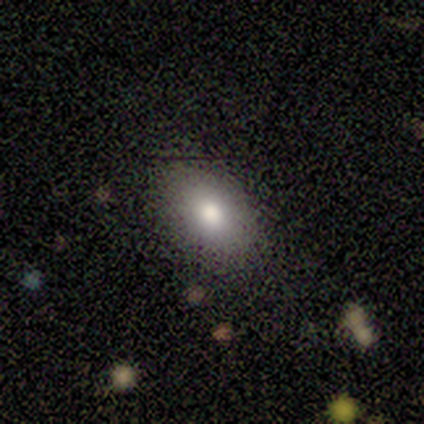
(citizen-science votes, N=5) Overall: smooth (100%). How rounded: round (40%, tied with in between). Merging: none (80%).